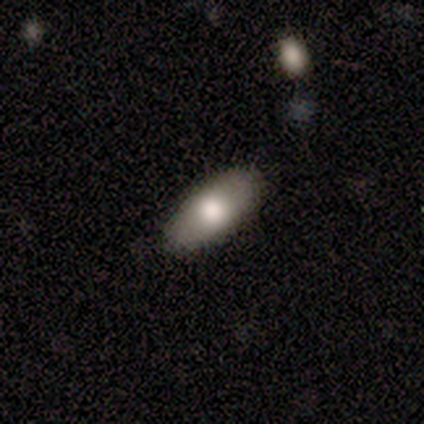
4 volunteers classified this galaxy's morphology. Smooth or featured? 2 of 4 (50%) said smooth. How rounded? 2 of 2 (100%) said in between. Merging? 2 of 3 (67%) said none.